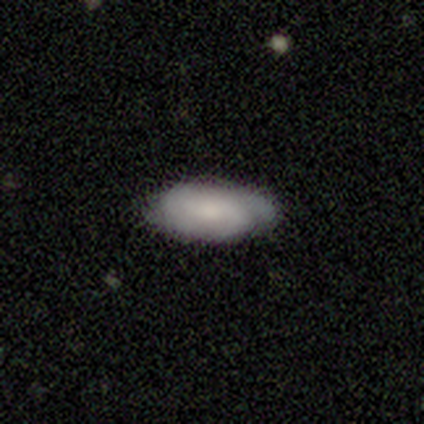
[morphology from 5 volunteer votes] Smooth or featured? 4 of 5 (80%) said featured or disk. Edge-on disk? 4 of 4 (100%) said no. Bar? 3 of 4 (75%) said no. Spiral arms? 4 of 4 (100%) said yes. Spiral winding? 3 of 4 (75%) said tight. Spiral arm count? 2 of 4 (50%) said 2. Bulge size? 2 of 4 (50%, tied with small) said moderate. Merging? 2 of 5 (40%, tied with minor disturbance) said none.